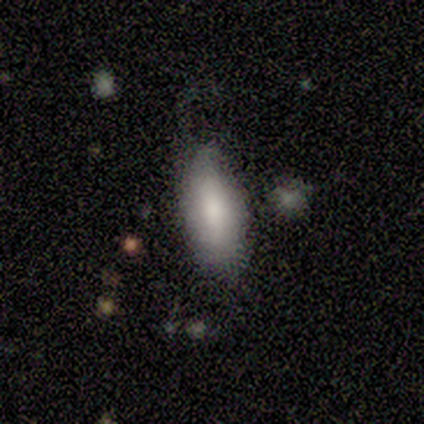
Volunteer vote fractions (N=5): A smooth galaxy with no disk features (80%) that is in between round and cigar-shaped (100%). Merging: minor disturbance (100%).